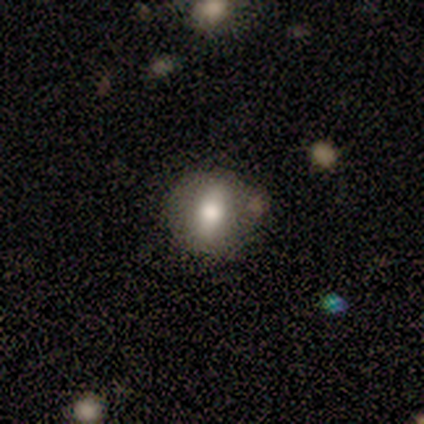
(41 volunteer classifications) Volunteers were most divided on "how rounded": round: 62%, in between: 38%, cigar-shaped: 0%. More confident: merging — none (72%); smooth or featured — smooth (59%).